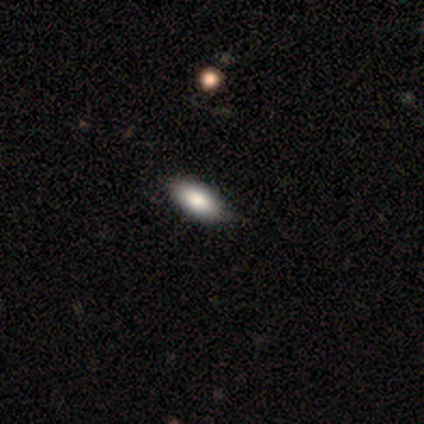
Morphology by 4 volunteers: Overall: smooth (75%). How rounded: in between (100%). Merging: none (75%).